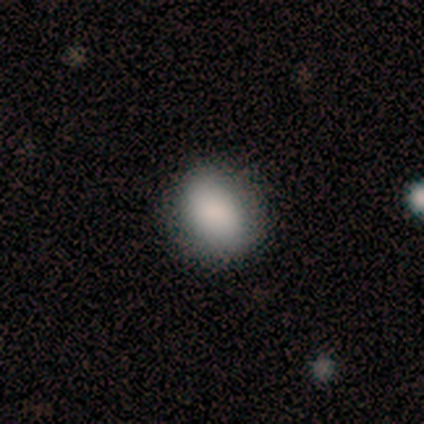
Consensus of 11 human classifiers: Smooth or featured? 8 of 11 (73%) said smooth. How rounded? 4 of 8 (50%, tied with in between) said round. Merging? 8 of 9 (89%) said none.